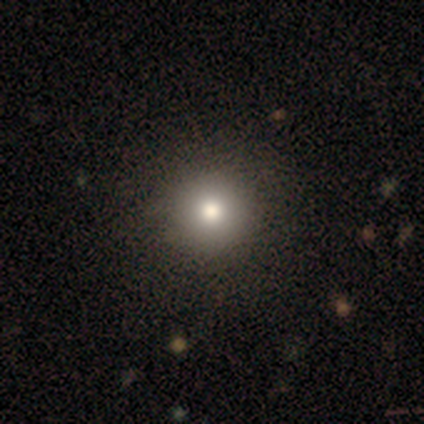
smooth_or_featured: smooth (p=0.79) [alt: star or artifact p=0.15]
how_rounded: round (p=0.90) [alt: in between p=0.06]
merging: none (p=0.64)